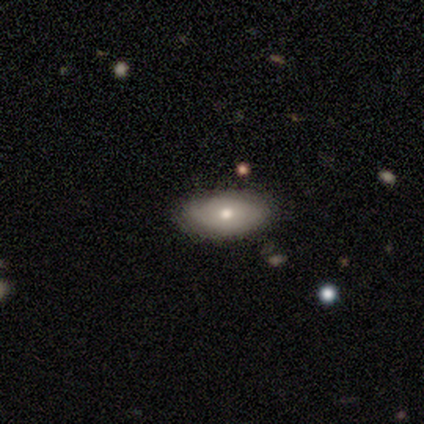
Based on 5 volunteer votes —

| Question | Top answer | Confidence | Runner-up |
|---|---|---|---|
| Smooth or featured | smooth | 80% | featured or disk (20%) |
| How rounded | in between | 100% | — |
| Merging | none | 80% | minor disturbance (20%) |